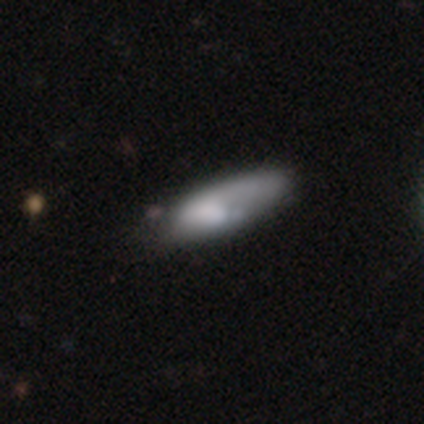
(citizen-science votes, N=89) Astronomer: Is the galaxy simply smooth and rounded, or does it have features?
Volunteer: smooth — 65%.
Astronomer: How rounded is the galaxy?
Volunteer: in between — 64%.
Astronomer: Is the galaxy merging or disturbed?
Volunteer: none — 41% (runner-up: minor disturbance, 31%).